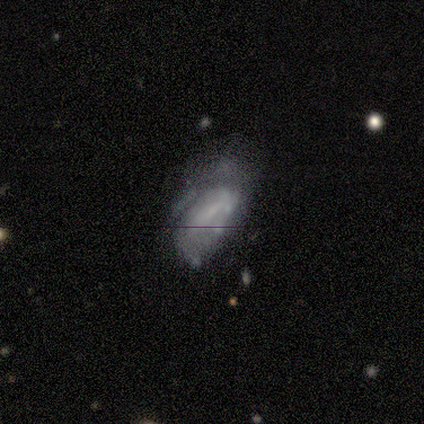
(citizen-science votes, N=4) Smooth or featured: featured or disk — 50% (tied with star or artifact — 50%)
Edge-on disk: no — 100%
Bar: weak — 50% (tied with no — 50%)
Spiral arms: yes — 100%
Spiral winding: tight — 50% (tied with medium — 50%)
Spiral arm count: 3 — 50% (tied with can't tell — 50%)
Bulge size: moderate — 50% (tied with none — 50%)
Merging: none — 50% (tied with minor disturbance — 50%)